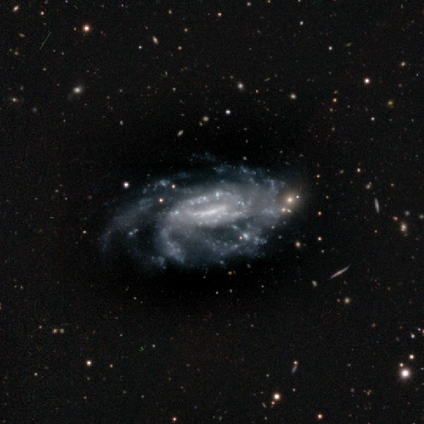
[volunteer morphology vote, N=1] Smooth or featured? featured or disk (100%)
Edge-on disk? no (100%)
Bar? weak (100%)
Spiral arms? yes (100%)
Spiral winding? medium (100%)
Spiral arm count? more than 4 (100%)
Bulge size? moderate (100%)
Merging? none (100%)